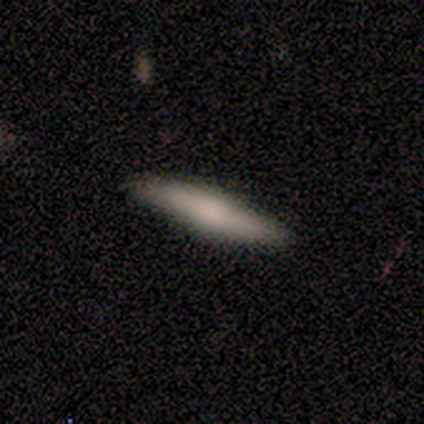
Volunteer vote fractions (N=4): Smooth or featured? smooth (50%, tied with featured or disk)
How rounded? cigar-shaped (100%)
Merging? none (75%)